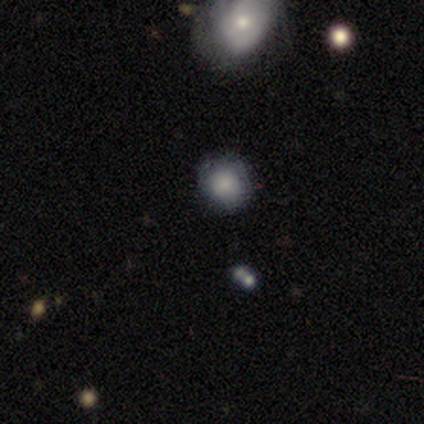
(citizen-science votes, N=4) Q: Smooth or featured?
A: smooth (100%)
Q: How rounded?
A: round (100%)
Q: Merging?
A: none (100%)